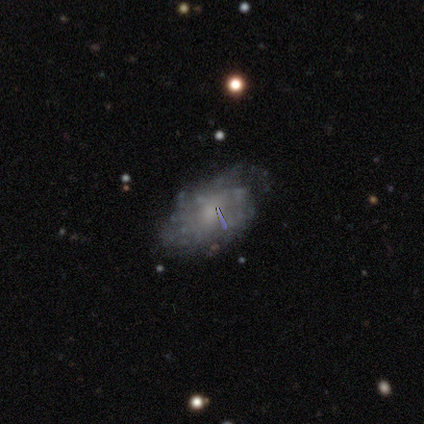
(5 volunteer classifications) This appears to be a featured or disk galaxy (80%) with no bar (75%), tight (67%) spiral arms (75%) and a small central bulge (50%). Merging: none (80%).